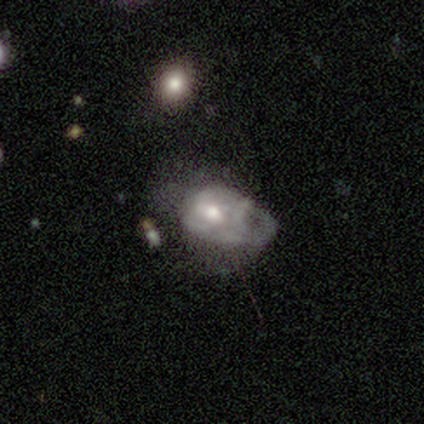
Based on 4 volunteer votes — This is possibly a smooth galaxy (50%, tied with featured or disk). How rounded: clearly in between (100%). Merging: possibly major disturbance (50%).